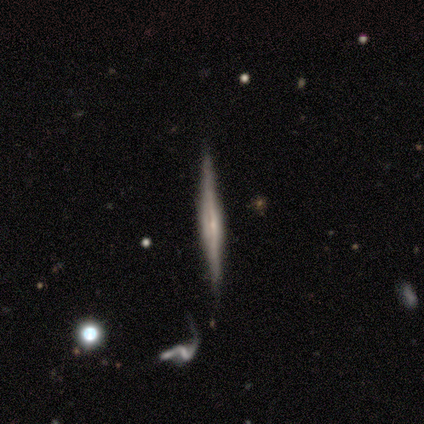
featured or disk 80%, smooth 20%, star or artifact 0%. Down the decision tree: edge-on disk — yes (100%); edge-on bulge — rounded (100%); merging — none (80%).